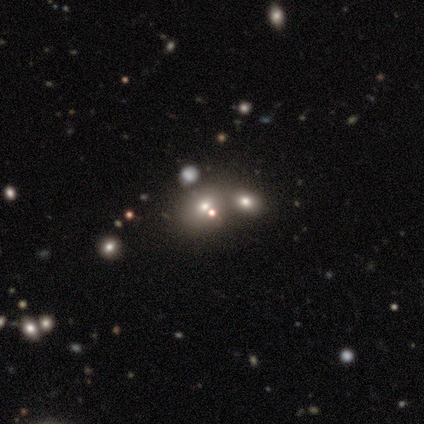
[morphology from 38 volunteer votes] Q: Smooth or featured?
A: smooth (47%); runner-up: star or artifact (39%)
Q: How rounded?
A: in between (50%); runner-up: round (44%)
Q: Merging?
A: merger (48%); runner-up: none (43%)